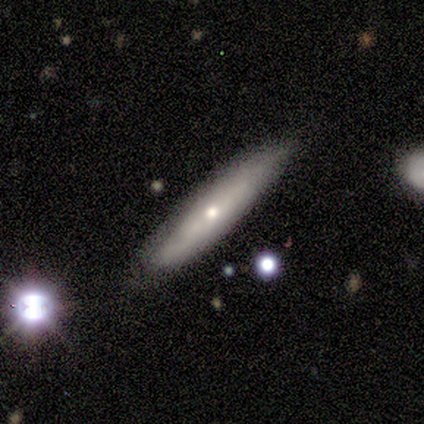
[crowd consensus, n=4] A smooth galaxy with no disk features (100%) that is cigar-shaped (75%).

Vote fractions:
- Smooth or featured? smooth: 100% / featured or disk: 0% / star or artifact: 0%
- How rounded? cigar-shaped: 75% / in between: 25% / round: 0%
- Merging? none: 75% / minor disturbance: 25% / major disturbance: 0% / merger: 0%